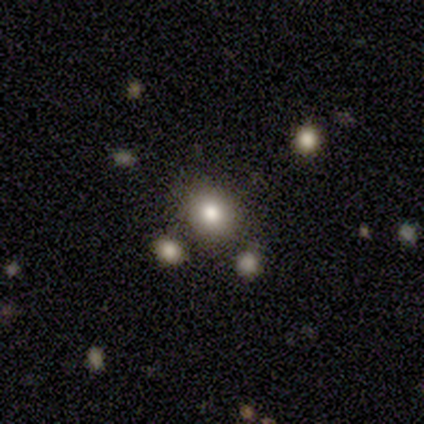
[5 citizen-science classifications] smooth-or-featured: smooth: 100% | featured or disk: 0% | star or artifact: 0%
  how-rounded: round: 80% | in between: 20% | cigar-shaped: 0%
  merging: none: 40% (tied) | minor disturbance: 40% (tied) | merger: 20% | major disturbance: 0%